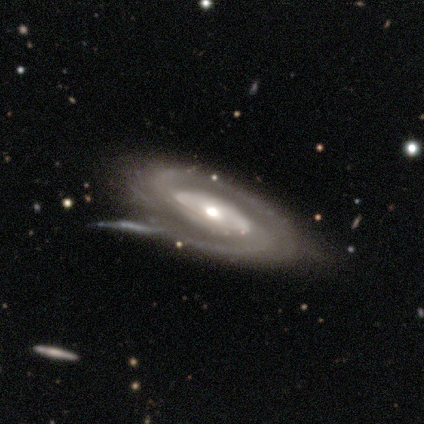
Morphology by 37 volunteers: smooth-or-featured: featured or disk: 92% | smooth: 5% | star or artifact: 3%
  disk-edge-on: no: 79% | yes: 21%
    bar: no: 74% | strong: 19% | weak: 7%
    has-spiral-arms: yes: 96% | no: 4%
      spiral-winding: tight: 62% | medium: 35% | loose: 4%
      spiral-arm-count: 2: 73% | can't tell: 15% | 1: 4% | 3: 4% | 4: 4% | more than 4: 0%
    bulge-size: moderate: 67% | small: 19% | large: 15% | dominant: 0% | none: 0%
  merging: none: 28% | major disturbance: 17% | minor disturbance: 14% | merger: 11%